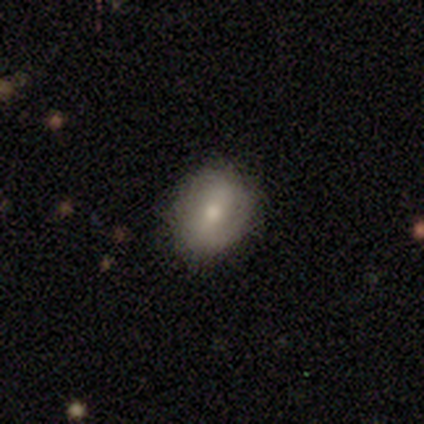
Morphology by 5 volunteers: Smooth or featured? smooth (60%)
How rounded? in between (100%)
Merging? none (100%)